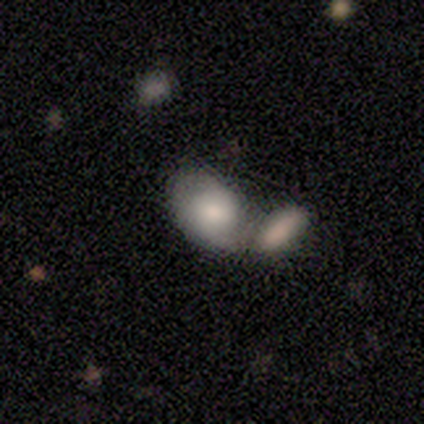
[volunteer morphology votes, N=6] Smooth or featured?
  - smooth: 67% *
  - featured or disk: 33%
  - star or artifact: 0%
How rounded?
  - in between: 75% *
  - round: 25%
  - cigar-shaped: 0%
Merging?
  - none: 50% *
  - merger: 33%
  - minor disturbance: 17%
  - major disturbance: 0%